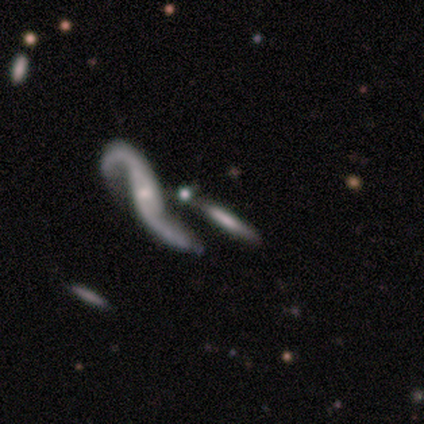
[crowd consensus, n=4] featured or disk 75%, smooth 25%, star or artifact 0%. Down the decision tree: edge-on disk — yes (67%); edge-on bulge — boxy (50%, tied with none); merging — merger (50%).